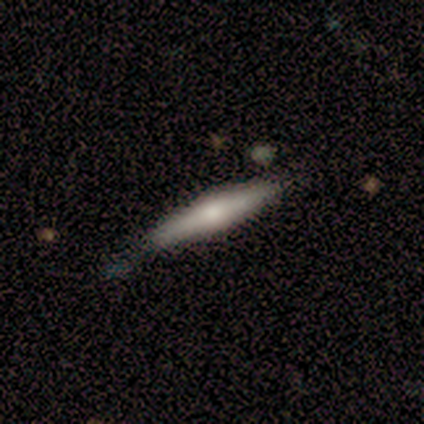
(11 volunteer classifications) smooth 64%, featured or disk 27%, star or artifact 9%. Down the decision tree: how rounded — cigar-shaped (86%); merging — none (80%).